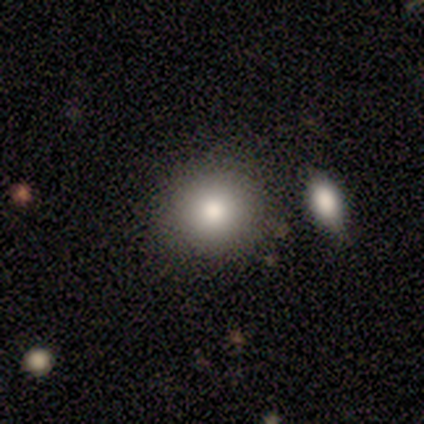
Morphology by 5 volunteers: Smooth or featured? 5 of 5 (100%) said smooth. How rounded? 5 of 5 (100%) said round. Merging? 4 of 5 (80%) said none.